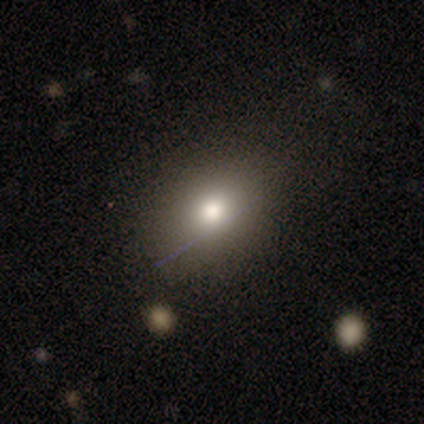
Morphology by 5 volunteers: type=smooth (60%); roundness=round (67%); merging=none (60%).